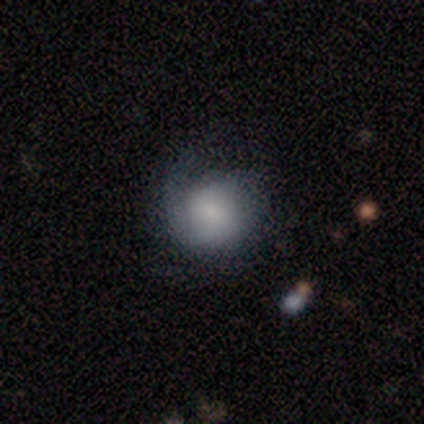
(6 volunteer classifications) smooth_or_featured: smooth (p=0.50) [tied with: featured or disk p=0.50]
how_rounded: round (p=1.00)
merging: none (p=0.67) [alt: minor disturbance p=0.17]